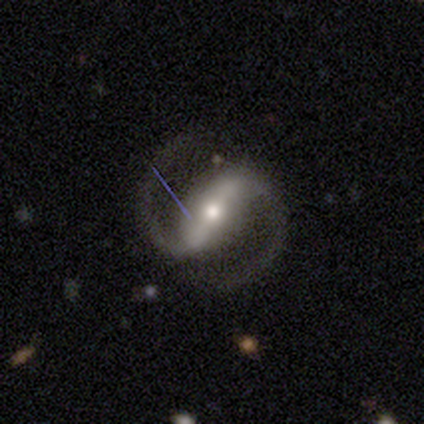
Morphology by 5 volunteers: smooth_or_featured: featured or disk (p=1.00)
disk_edge_on: no (p=1.00)
bar: strong (p=0.60) [alt: weak p=0.40]
has_spiral_arms: yes (p=1.00)
spiral_winding: loose (p=0.60) [alt: medium p=0.40]
spiral_arm_count: 2 (p=1.00)
bulge_size: moderate (p=0.80) [alt: small p=0.20]
merging: none (p=1.00)